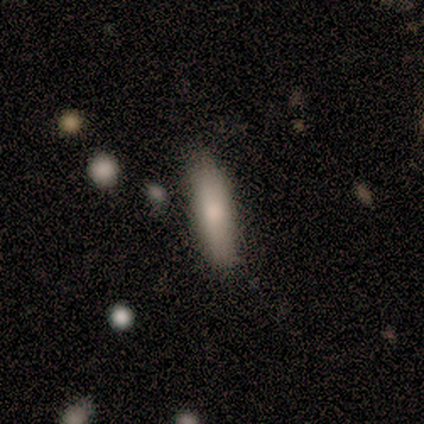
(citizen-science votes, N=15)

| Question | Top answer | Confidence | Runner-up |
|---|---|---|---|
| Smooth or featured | smooth | 87% | featured or disk (13%) |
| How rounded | cigar-shaped | 54% | in between (46%) |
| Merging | none | 87% | minor disturbance (13%) |